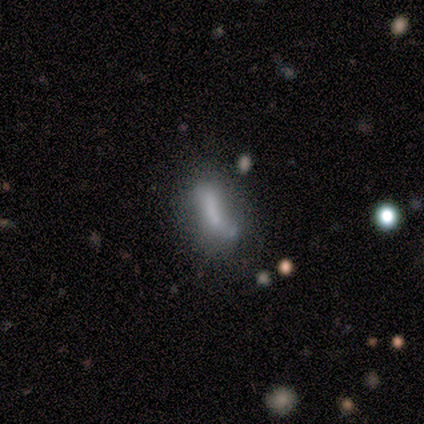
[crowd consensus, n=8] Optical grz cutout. It shows a smooth galaxy with no disk features (75%) that is in between round and cigar-shaped (50%, tied with cigar-shaped). Merging: none (43%).